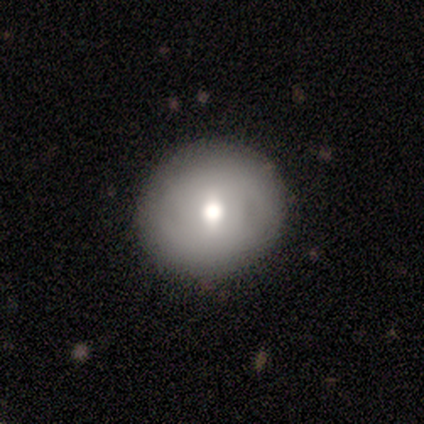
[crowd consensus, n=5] Smooth or featured?
  - smooth: 80% *
  - star or artifact: 20%
  - featured or disk: 0%
How rounded?
  - round: 75% *
  - in between: 25%
  - cigar-shaped: 0%
Merging?
  - none: 100% *
  - minor disturbance: 0%
  - major disturbance: 0%
  - merger: 0%